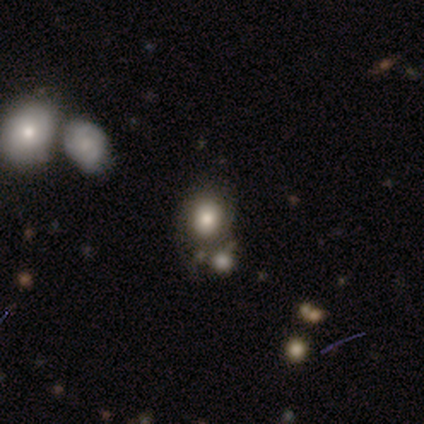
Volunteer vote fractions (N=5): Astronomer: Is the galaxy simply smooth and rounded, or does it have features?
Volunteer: smooth — 100%.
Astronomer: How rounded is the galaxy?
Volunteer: round — 60% (runner-up: in between, 40%).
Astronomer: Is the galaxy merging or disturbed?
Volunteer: none — 40%, tied with merger at 40%.